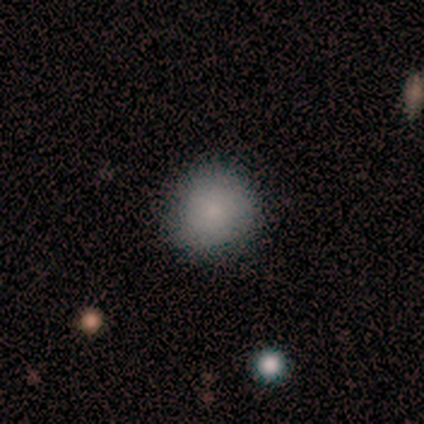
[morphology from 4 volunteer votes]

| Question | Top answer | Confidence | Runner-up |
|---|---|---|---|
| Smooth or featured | smooth | 50% | tied: star or artifact (50%) |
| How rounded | round | 100% | — |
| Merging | none | 100% | — |